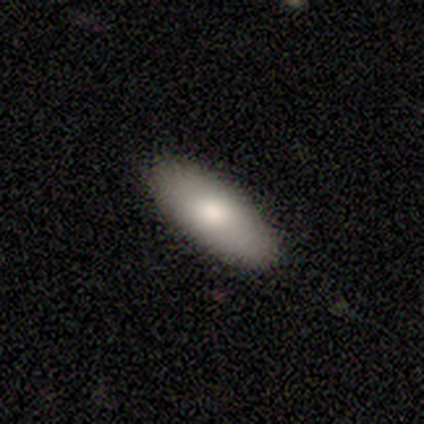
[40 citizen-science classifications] A smooth galaxy with no disk features (65%) that is in between round and cigar-shaped (85%). Merging: none (95%).